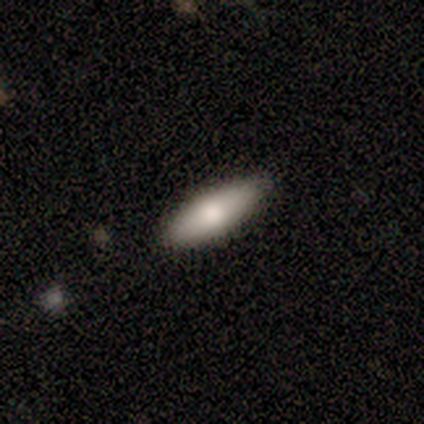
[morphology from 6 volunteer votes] smooth 83%, featured or disk 17%, star or artifact 0%. Down the decision tree: how rounded — cigar-shaped (60%); merging — none (100%).